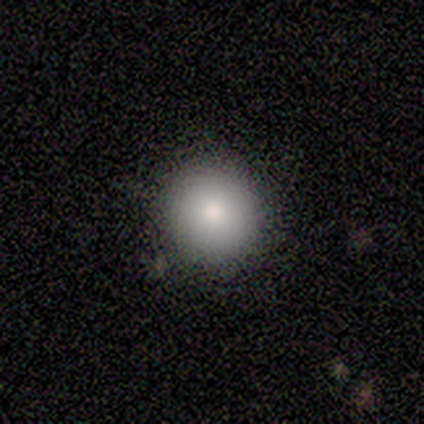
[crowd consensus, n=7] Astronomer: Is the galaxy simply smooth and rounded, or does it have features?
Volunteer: smooth — 71%.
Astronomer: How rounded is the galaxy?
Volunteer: round — 100%.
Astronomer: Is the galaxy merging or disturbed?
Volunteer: none — 100%.